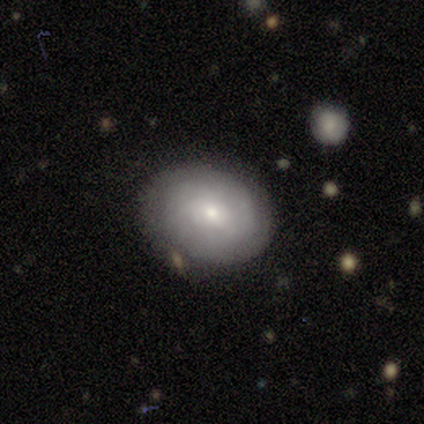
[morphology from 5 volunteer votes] smooth 60%, featured or disk 40%, star or artifact 0%. Down the decision tree: how rounded — round (67%); merging — none (80%).